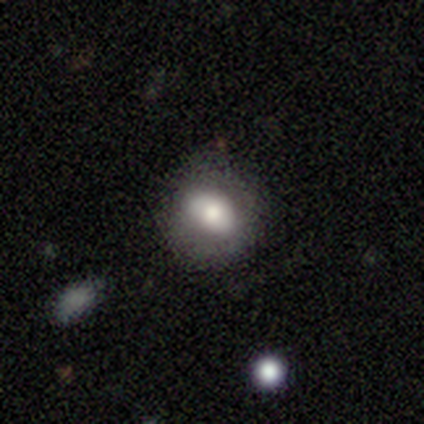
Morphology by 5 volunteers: smooth-or-featured: smooth: 60% | featured or disk: 20% | star or artifact: 20%
  how-rounded: in between: 67% | round: 33% | cigar-shaped: 0%
  merging: major disturbance: 50% | none: 25% | minor disturbance: 25% | merger: 0%